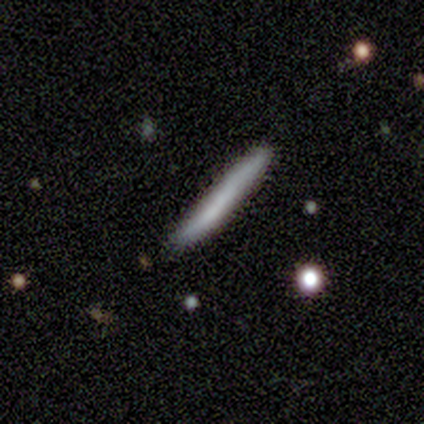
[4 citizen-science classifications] This appears to be a smooth galaxy with no disk features (50%, tied with featured or disk) that is in between round and cigar-shaped (50%, tied with cigar-shaped). Merging: none (75%).